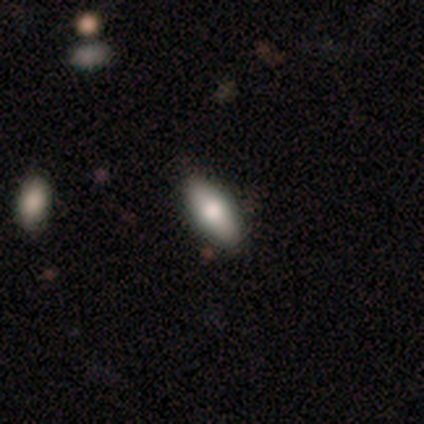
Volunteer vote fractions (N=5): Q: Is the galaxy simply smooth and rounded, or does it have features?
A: smooth — 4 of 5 (80%).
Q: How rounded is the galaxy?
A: in between — 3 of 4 (75%).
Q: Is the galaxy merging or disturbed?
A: none — 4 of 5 (80%).